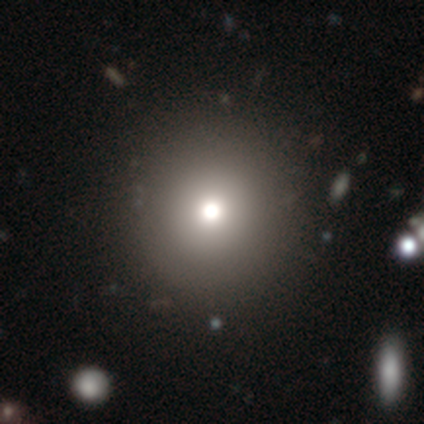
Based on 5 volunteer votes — This is likely a smooth galaxy (60%). How rounded: clearly round (100%). Merging: clearly none (100%).